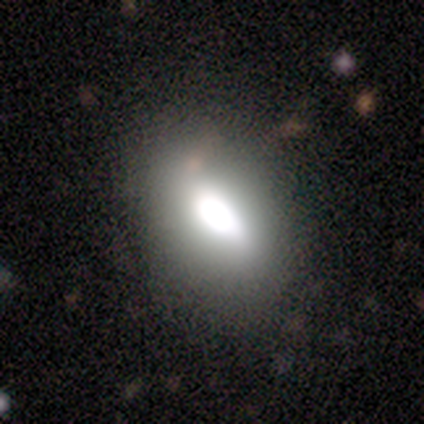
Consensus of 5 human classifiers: smooth_or_featured: smooth (p=0.60) [alt: featured or disk p=0.20]
how_rounded: in between (p=1.00)
merging: none (p=0.50) [tied with: minor disturbance p=0.50]